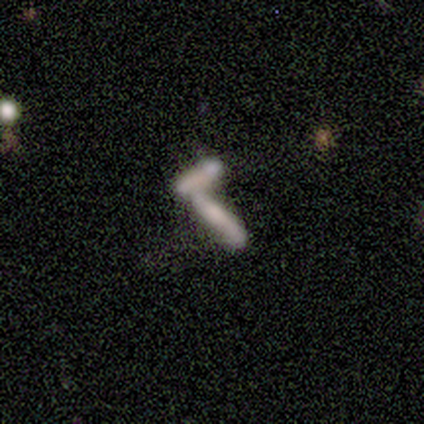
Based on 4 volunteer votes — This appears to be a smooth galaxy with no disk features (75%) that is cigar-shaped (100%). Merging: merger (75%).